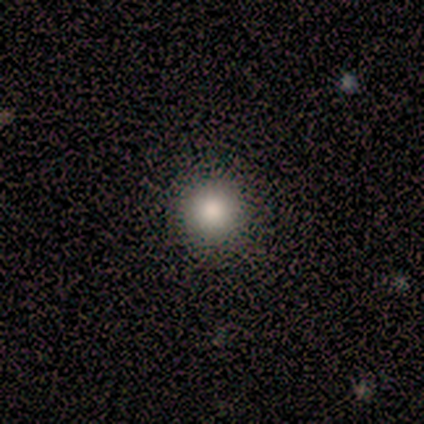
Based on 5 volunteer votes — Smooth or featured? smooth (100%)
How rounded? round (100%)
Merging? none (100%)